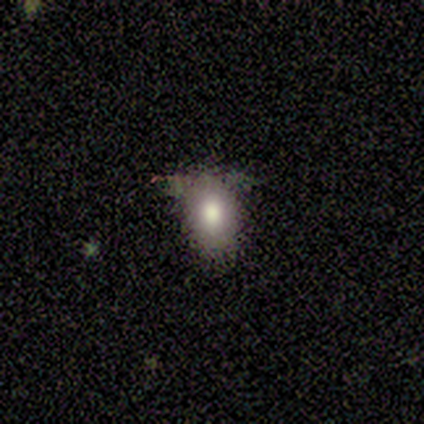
smooth_or_featured: smooth (p=1.00)
how_rounded: in between (p=0.80) [alt: round p=0.20]
merging: none (p=0.80) [alt: major disturbance p=0.20]